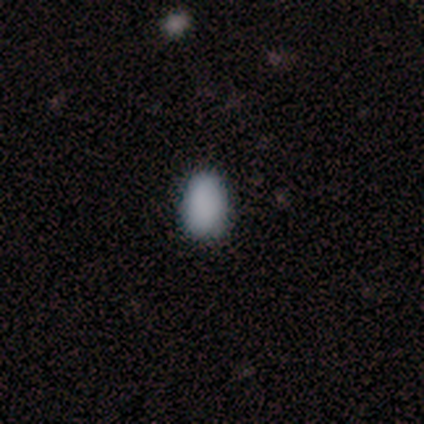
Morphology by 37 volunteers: smooth 97%, star or artifact 3%, featured or disk 0%. Down the decision tree: how rounded — in between (94%); merging — none (78%).